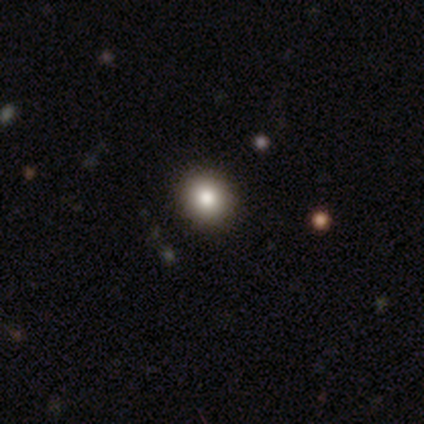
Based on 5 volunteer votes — Overall: smooth (100%). How rounded: round (100%). Merging: none (100%).